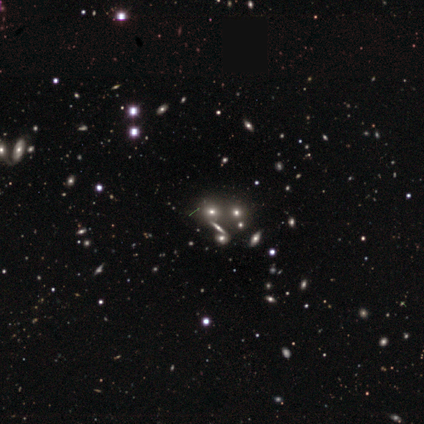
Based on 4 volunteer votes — star or artifact 75%, smooth 25%, featured or disk 0%.